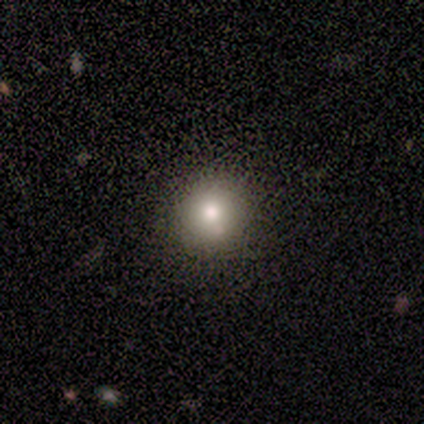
This appears to be a smooth galaxy with no disk features (86%) that is round (100%). Merging: none (75%).